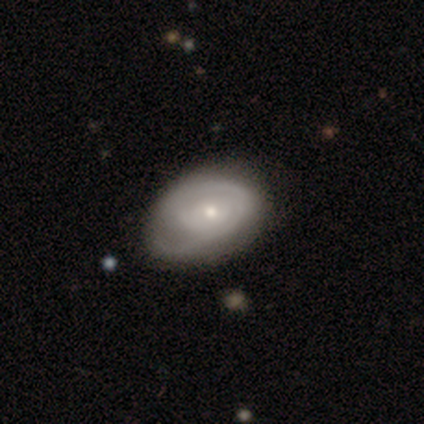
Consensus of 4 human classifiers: Q: Smooth or featured?
A: featured or disk (75%); runner-up: smooth (25%)
Q: Edge-on disk?
A: no (100%)
Q: Bar?
A: no (100%)
Q: Spiral arms?
A: yes (100%)
Q: Spiral winding?
A: medium (100%)
Q: Spiral arm count?
A: can't tell (67%); runner-up: 1 (33%)
Q: Bulge size?
A: small (67%); runner-up: moderate (33%)
Q: Merging?
A: none (50%); tied with: minor disturbance (50%)